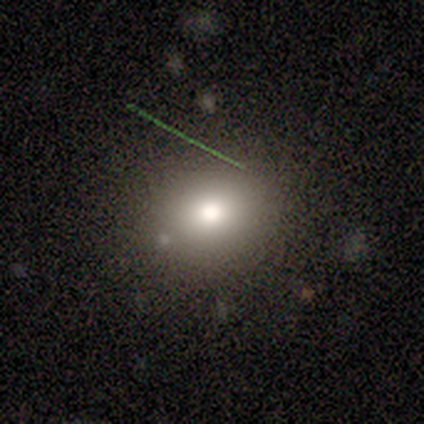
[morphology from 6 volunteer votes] A smooth galaxy with no disk features (50%) that is round (67%).

Vote fractions:
- Smooth or featured? smooth: 50% / star or artifact: 33% / featured or disk: 17%
- How rounded? round: 67% / in between: 33% / cigar-shaped: 0%
- Merging? none: 50% (tied) / minor disturbance: 50% (tied) / major disturbance: 0% / merger: 0%